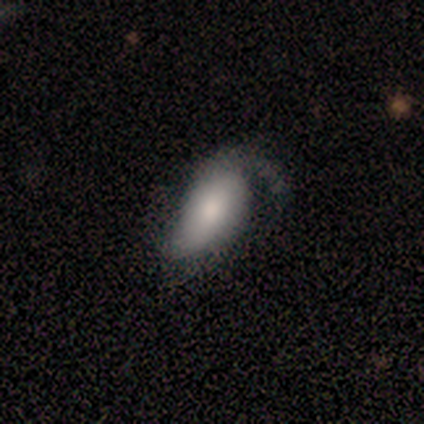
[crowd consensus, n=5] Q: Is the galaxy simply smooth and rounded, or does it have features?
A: featured or disk — 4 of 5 (80%).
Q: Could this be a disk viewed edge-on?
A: no — 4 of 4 (100%).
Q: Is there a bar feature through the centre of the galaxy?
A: no — 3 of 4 (75%).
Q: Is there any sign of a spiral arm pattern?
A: yes — 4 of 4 (100%).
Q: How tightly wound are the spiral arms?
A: medium — 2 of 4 (50%, tied with loose).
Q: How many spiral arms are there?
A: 2 — 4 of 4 (100%).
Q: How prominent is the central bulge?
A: moderate — 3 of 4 (75%).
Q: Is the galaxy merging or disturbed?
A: none — 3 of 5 (60%).